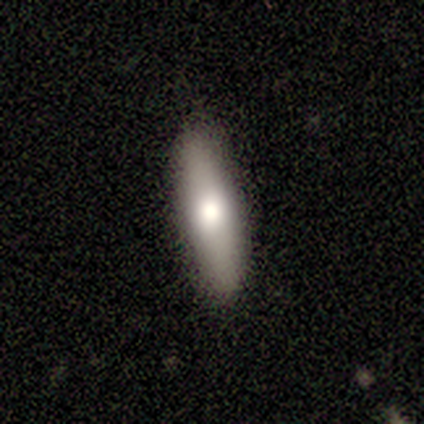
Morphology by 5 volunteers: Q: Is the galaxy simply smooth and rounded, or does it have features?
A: smooth — 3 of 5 (60%).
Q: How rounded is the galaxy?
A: cigar-shaped — 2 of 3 (67%).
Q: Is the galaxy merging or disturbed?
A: none — 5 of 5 (100%).